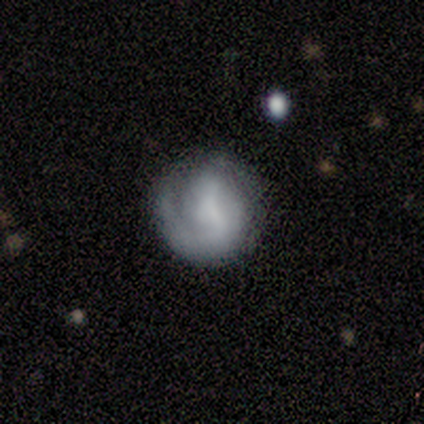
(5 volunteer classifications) This is clearly a featured or disk galaxy (80%). It is clearly not viewed edge-on (100%). Bar: possibly weak (50%, tied with no). Spiral arm pattern: likely yes (75%). Spiral arm count: likely can't tell (67%). Spiral winding: likely loose (67%). Central bulge: marginally dominant (25%, tied with moderate, small and none). Merging: likely none (60%).